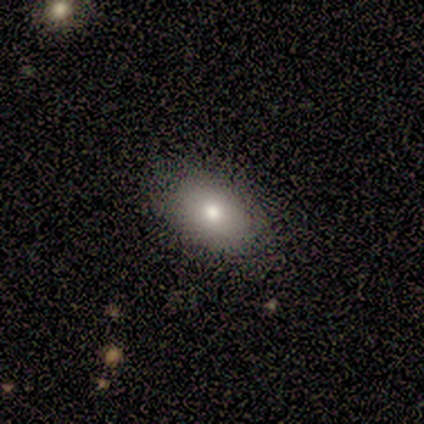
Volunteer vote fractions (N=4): Volunteers were most divided on "how rounded" (2-way tie): round: 50%, in between: 50%, cigar-shaped: 0%. More confident: merging — none (100%); smooth or featured — smooth (50%).